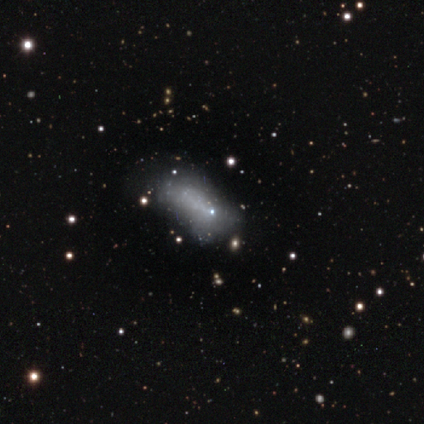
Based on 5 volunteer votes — Volunteers were most divided on "smooth or featured" (2-way tie): smooth: 40%, star or artifact: 40%, featured or disk: 20%; "how rounded" (2-way tie): round: 50%, in between: 50%, cigar-shaped: 0%. More confident: merging — minor disturbance (67%).